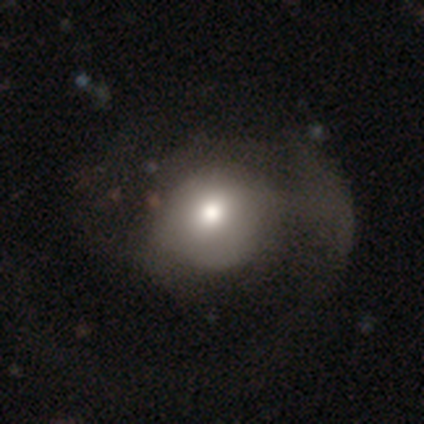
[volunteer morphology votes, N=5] Smooth or featured: smooth — 60% (featured or disk — 40%)
How rounded: in between — 67% (round — 33%)
Merging: major disturbance — 60% (none — 40%)